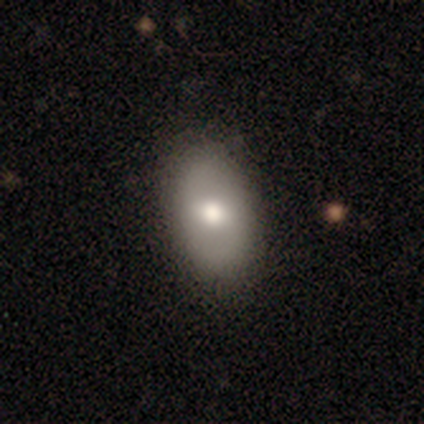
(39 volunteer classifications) This appears to be a smooth galaxy with no disk features (72%) that is in between round and cigar-shaped (86%). Merging: none (76%).